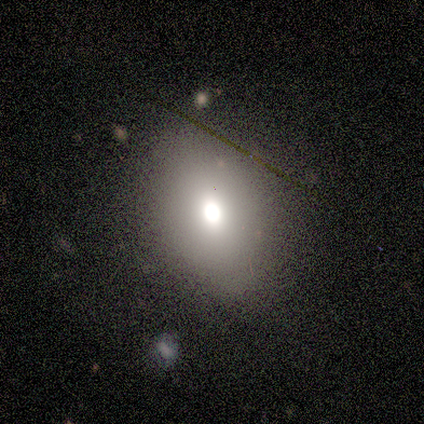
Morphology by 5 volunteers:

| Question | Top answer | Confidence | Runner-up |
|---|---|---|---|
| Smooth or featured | featured or disk | 40% | tied: star or artifact (40%) |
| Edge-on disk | no | 100% | — |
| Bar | no | 100% | — |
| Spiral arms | no | 100% | — |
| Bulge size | moderate | 100% | — |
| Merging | none | 67% | minor disturbance (33%) |